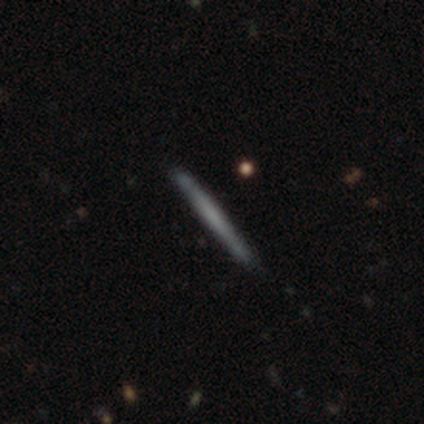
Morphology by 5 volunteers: smooth_or_featured: featured or disk (p=0.80) [alt: smooth p=0.20]
disk_edge_on: yes (p=1.00)
edge_on_bulge: none (p=1.00)
merging: none (p=1.00)